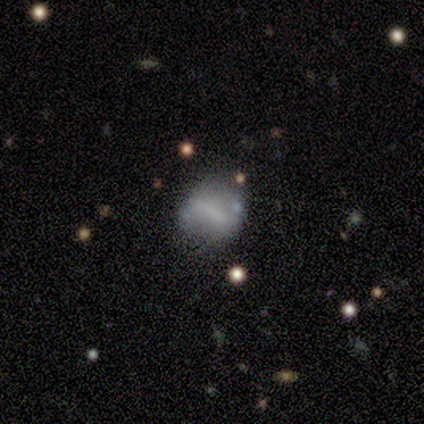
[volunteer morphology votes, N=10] A featured or disk galaxy (60%) with a strong bar (67%), no spiral arms (67%) and no central bulge (67%).

Vote fractions:
- Smooth or featured? featured or disk: 60% / smooth: 40% / star or artifact: 0%
- Edge-on disk? no: 100% / yes: 0%
- Bar? strong: 67% / weak: 17% / no: 17%
- Spiral arms? no: 67% / yes: 33%
- Bulge size? none: 67% / large: 17% / small: 17% / dominant: 0% / moderate: 0%
- Merging? none: 70% / major disturbance: 20% / minor disturbance: 10% / merger: 0%